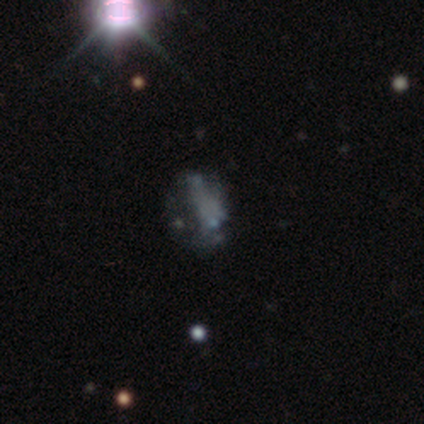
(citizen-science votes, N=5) Smooth or featured? 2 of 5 (40%, tied with star or artifact) said featured or disk. Edge-on disk? 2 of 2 (100%) said no. Bar? 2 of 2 (100%) said no. Spiral arms? 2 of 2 (100%) said no. Bulge size? 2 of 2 (100%) said none. Merging? 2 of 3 (67%) said none.